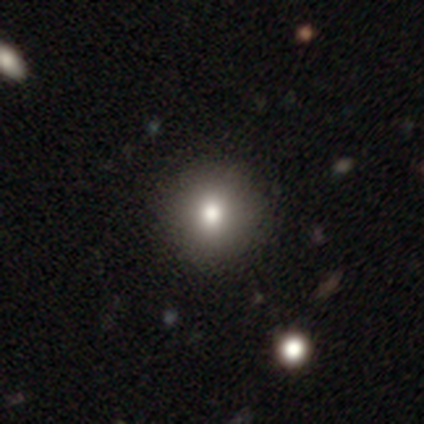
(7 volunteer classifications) Morphology: type=smooth (43%); roundness=round (100%); merging=none (60%).